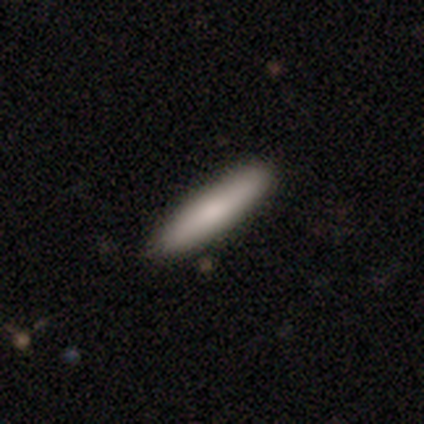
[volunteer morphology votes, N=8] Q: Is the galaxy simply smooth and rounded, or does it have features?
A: smooth — 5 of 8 (62%).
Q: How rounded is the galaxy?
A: cigar-shaped — 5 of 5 (100%).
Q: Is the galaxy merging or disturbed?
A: none — 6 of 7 (86%).